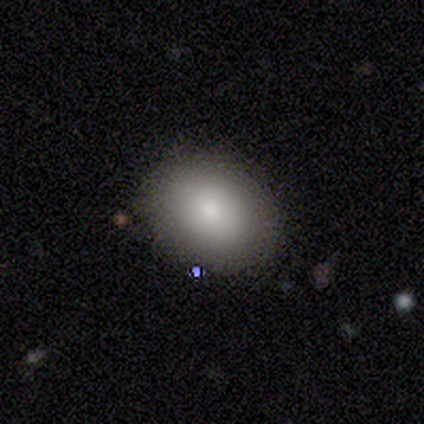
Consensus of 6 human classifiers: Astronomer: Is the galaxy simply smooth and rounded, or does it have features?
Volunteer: smooth — 83%.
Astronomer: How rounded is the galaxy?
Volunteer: in between — 60% (runner-up: round, 40%).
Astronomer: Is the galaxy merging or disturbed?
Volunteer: none — 83%.